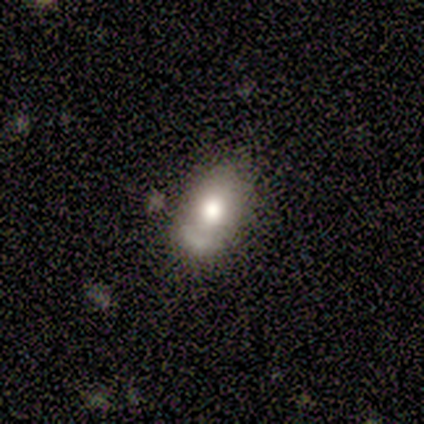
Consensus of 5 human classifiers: A smooth galaxy with no disk features (80%) that is round (50%, tied with in between).

Vote fractions:
- Smooth or featured? smooth: 80% / featured or disk: 20% / star or artifact: 0%
- How rounded? round: 50% (tied) / in between: 50% (tied) / cigar-shaped: 0%
- Merging? none: 100% / minor disturbance: 0% / major disturbance: 0% / merger: 0%